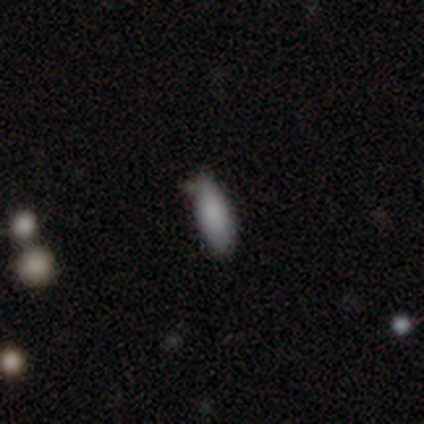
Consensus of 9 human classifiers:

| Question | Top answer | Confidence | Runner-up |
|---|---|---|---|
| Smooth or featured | smooth | 100% | — |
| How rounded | in between | 89% | cigar-shaped (11%) |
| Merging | none | 78% | minor disturbance (22%) |